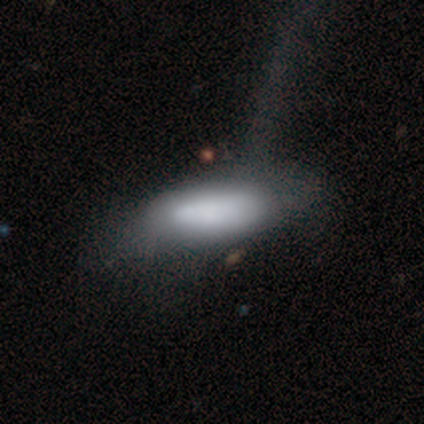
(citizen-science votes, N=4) Overall: smooth (100%). How rounded: in between (50%, tied with cigar-shaped). Merging: none (100%).